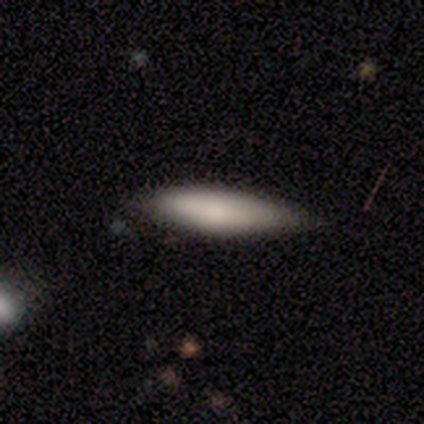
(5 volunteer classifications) smooth_or_featured: smooth (p=0.80) [alt: featured or disk p=0.20]
how_rounded: cigar-shaped (p=0.75) [alt: in between p=0.25]
merging: none (p=0.60) [alt: minor disturbance p=0.40]